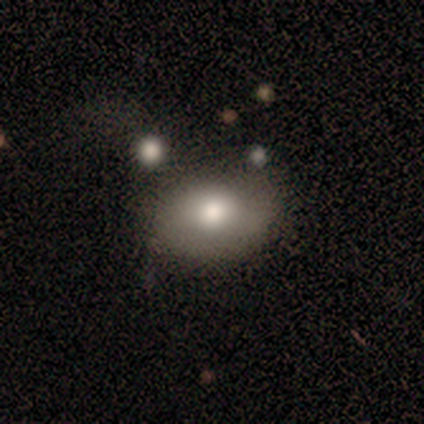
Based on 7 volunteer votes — A smooth galaxy with no disk features (100%) that is in between round and cigar-shaped (86%).

Vote fractions:
- Smooth or featured? smooth: 100% / featured or disk: 0% / star or artifact: 0%
- How rounded? in between: 86% / round: 14% / cigar-shaped: 0%
- Merging? none: 71% / minor disturbance: 29% / major disturbance: 0% / merger: 0%